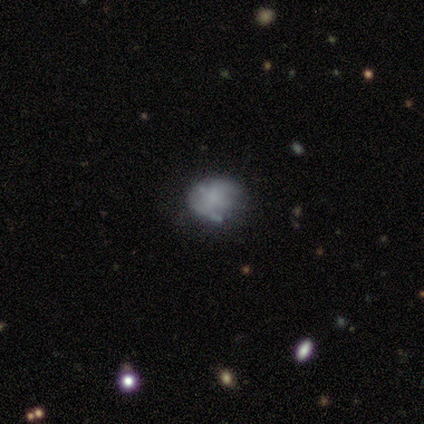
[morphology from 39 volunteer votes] Volunteers were most divided on "smooth or featured": featured or disk: 56%, smooth: 38%, star or artifact: 5%. More confident: edge-on disk — no (100%); bar — no (73%); bulge size — none (73%); spiral arms — no (68%); merging — none (68%).